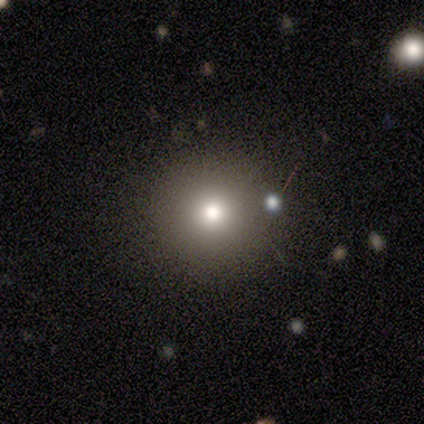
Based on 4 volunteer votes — Overall: smooth (75%). How rounded: round (100%). Merging: none (100%).